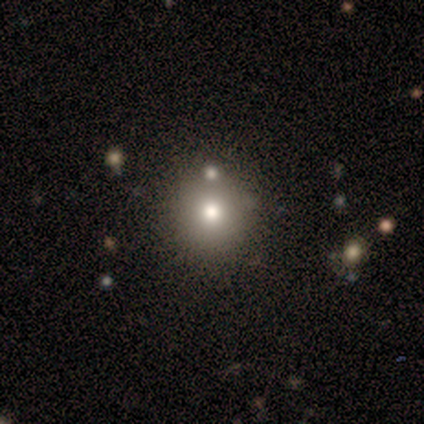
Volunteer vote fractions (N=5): Overall: smooth (80%). How rounded: round (100%). Merging: none (100%).